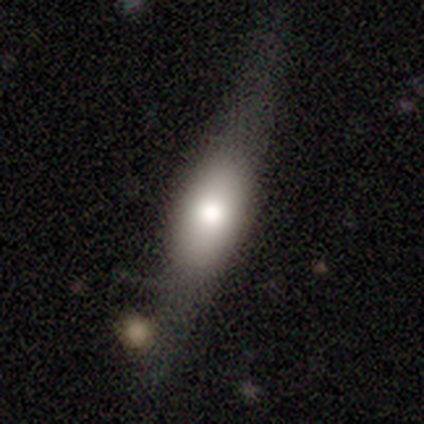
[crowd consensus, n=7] Smooth or featured? smooth (57%)
How rounded? in between (75%)
Merging? none (71%)